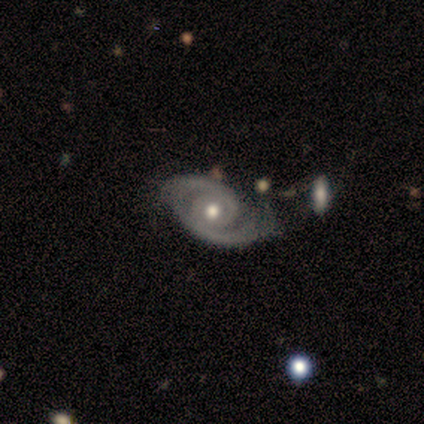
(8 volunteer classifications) This appears to be a featured or disk galaxy (100%) with no bar (86%), 2 (100%) tight (50%) spiral arms (86%) and a moderate central bulge (86%). Merging: none (75%).